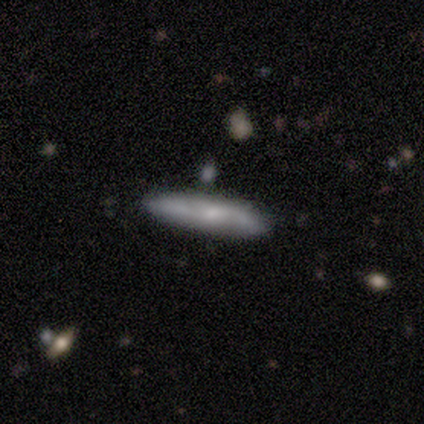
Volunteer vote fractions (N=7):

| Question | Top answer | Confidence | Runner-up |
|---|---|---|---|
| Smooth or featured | smooth | 57% | featured or disk (43%) |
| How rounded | cigar-shaped | 100% | — |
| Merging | none | 57% | minor disturbance (29%) |